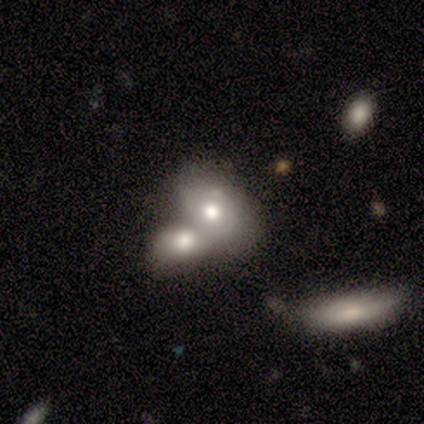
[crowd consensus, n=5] Smooth or featured? smooth (100%)
How rounded? in between (80%)
Merging? merger (80%)